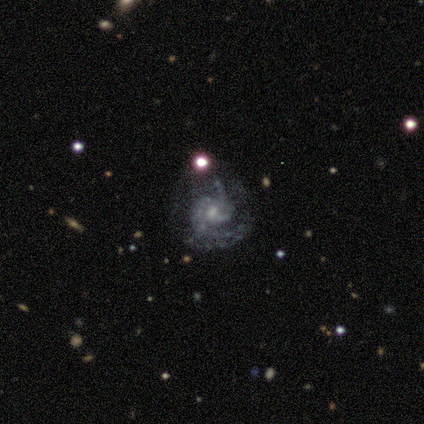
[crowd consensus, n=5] Q: Smooth or featured?
A: featured or disk (100%)
Q: Edge-on disk?
A: no (100%)
Q: Bar?
A: no (80%); runner-up: weak (20%)
Q: Spiral arms?
A: yes (80%); runner-up: no (20%)
Q: Spiral winding?
A: medium (75%); runner-up: tight (25%)
Q: Spiral arm count?
A: 2 (100%)
Q: Bulge size?
A: small (100%)
Q: Merging?
A: none (60%); runner-up: minor disturbance (20%)